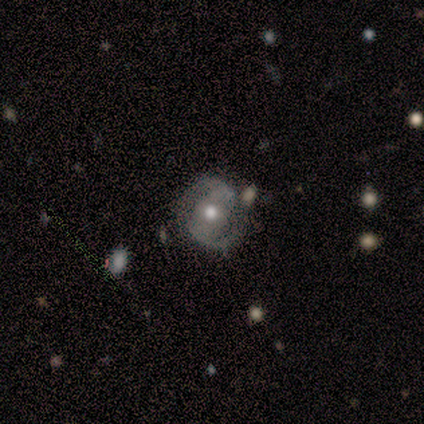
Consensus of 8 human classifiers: Smooth or featured: featured or disk — 75% (smooth — 25%)
Edge-on disk: no — 100%
Bar: strong — 67% (weak — 33%)
Spiral arms: yes — 100%
Spiral winding: medium — 50% (tight — 33%)
Spiral arm count: 2 — 100%
Bulge size: moderate — 83% (small — 17%)
Merging: none — 62% (minor disturbance — 25%)